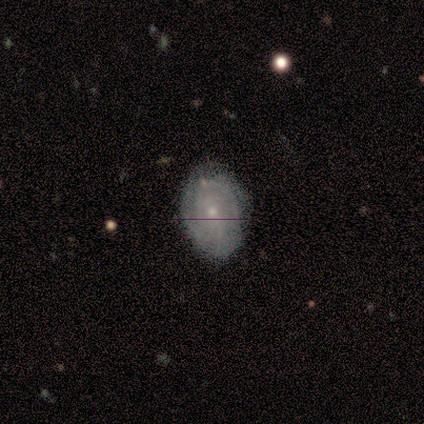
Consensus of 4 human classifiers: Smooth or featured? featured or disk (75%)
Edge-on disk? no (100%)
Bar? strong (33%, tied with weak and no)
Spiral arms? yes (100%)
Spiral winding? tight (100%)
Spiral arm count? 2 (33%, tied with 3 and more than 4)
Bulge size? small (67%)
Merging? none (50%, tied with minor disturbance)